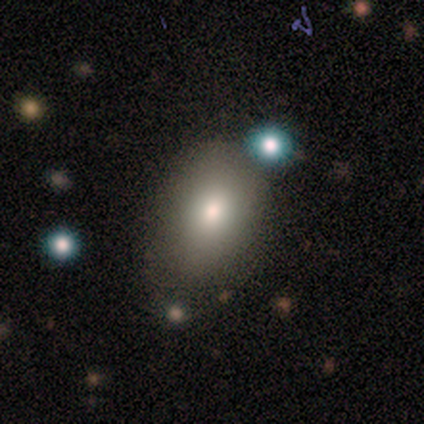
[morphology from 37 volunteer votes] Smooth or featured: smooth — 92% (star or artifact — 5%)
How rounded: in between — 97% (round — 3%)
Merging: none — 63% (minor disturbance — 26%)